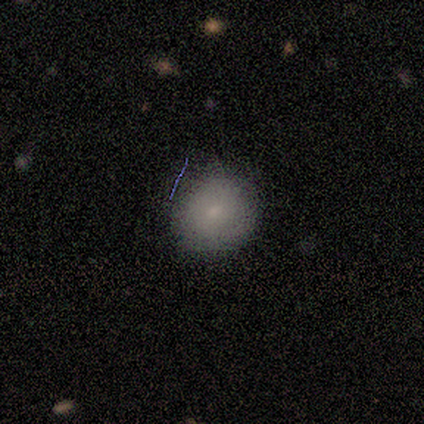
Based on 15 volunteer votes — Smooth or featured? smooth (73%)
How rounded? round (73%)
Merging? none (71%)